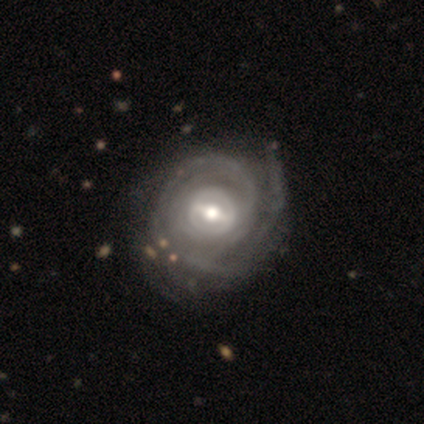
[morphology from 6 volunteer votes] This is clearly a featured or disk galaxy (100%). It is clearly not viewed edge-on (100%). Bar: possibly weak (50%). Spiral arm pattern: clearly yes (100%). Spiral arm count: marginally can't tell (33%). Spiral winding: clearly tight (83%). Central bulge: likely moderate (67%). Merging: clearly none (100%).